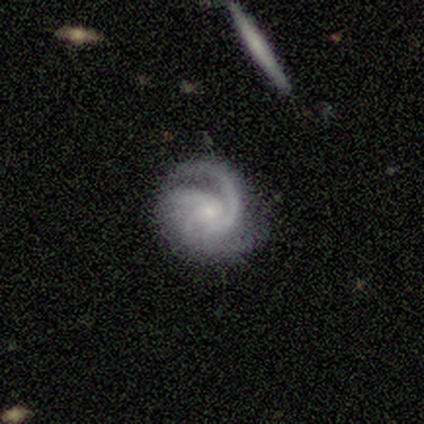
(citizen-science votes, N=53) Morphology: type=featured or disk (94%); edge-on=no (100%); bar=no (84%); spiral arms=yes (100%); winding=medium (54%); arm count=3 (50%); bulge=small (78%); merging=none (67%).